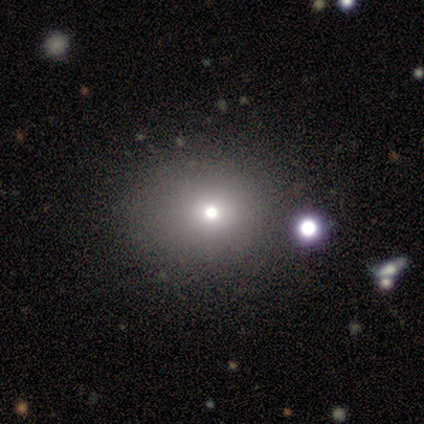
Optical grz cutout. It shows a smooth galaxy with no disk features (75%) that is round (67%). Merging: none (100%).